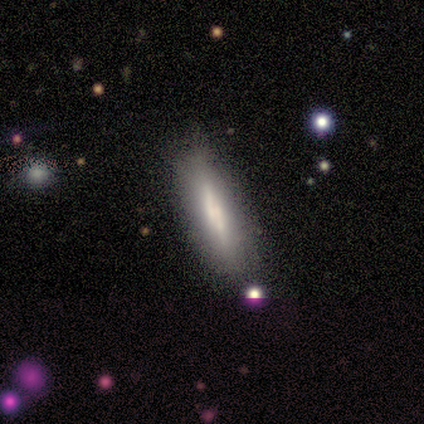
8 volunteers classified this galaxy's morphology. Smooth or featured? smooth (38%, tied with featured or disk)
How rounded? in between (100%)
Merging? none (83%)